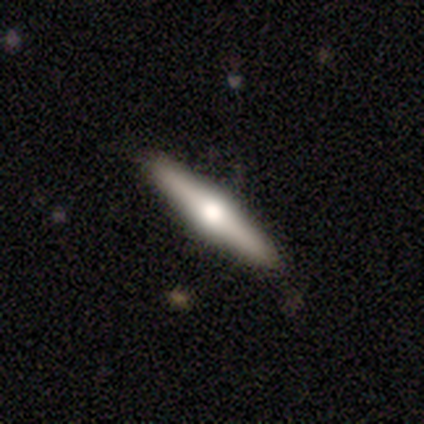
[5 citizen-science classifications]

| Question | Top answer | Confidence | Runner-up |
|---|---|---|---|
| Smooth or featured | featured or disk | 60% | smooth (40%) |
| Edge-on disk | yes | 100% | — |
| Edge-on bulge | rounded | 67% | boxy (33%) |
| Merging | none | 100% | — |